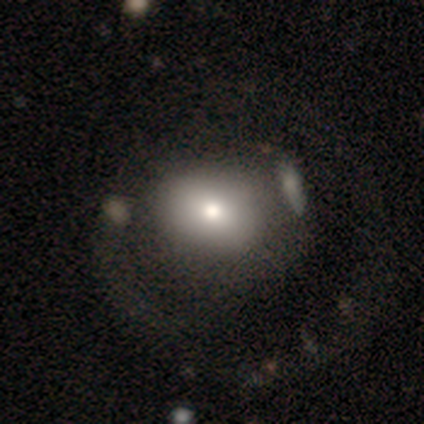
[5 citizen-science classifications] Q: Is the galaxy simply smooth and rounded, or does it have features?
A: featured or disk — 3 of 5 (60%).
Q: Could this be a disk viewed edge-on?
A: no — 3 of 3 (100%).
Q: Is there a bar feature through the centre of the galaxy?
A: no — 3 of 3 (100%).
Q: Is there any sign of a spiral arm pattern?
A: yes — 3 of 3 (100%).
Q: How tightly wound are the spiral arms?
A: tight — 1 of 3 (33%, tied with medium and loose).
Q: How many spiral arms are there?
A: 1 — 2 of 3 (67%).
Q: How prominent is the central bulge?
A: large — 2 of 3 (67%).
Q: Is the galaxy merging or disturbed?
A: major disturbance — 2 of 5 (40%).